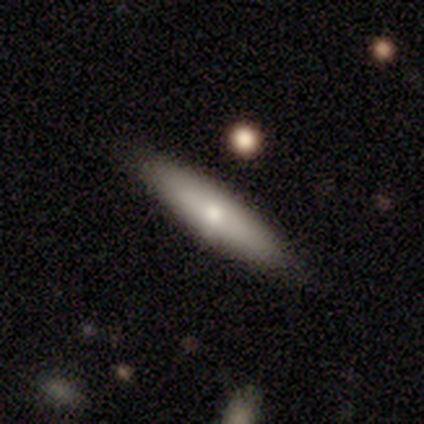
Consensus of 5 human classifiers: A smooth galaxy with no disk features (60%) that is cigar-shaped (100%). Merging: none (100%).